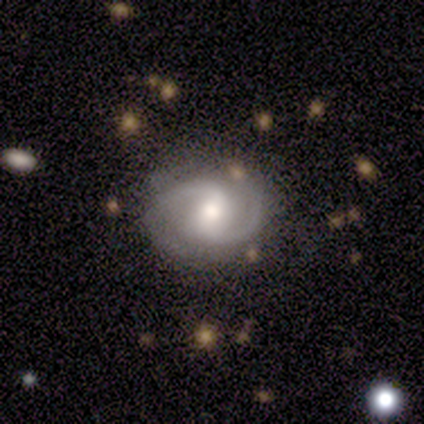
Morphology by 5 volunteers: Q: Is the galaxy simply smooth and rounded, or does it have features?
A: featured or disk — 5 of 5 (100%).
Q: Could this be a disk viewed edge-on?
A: no — 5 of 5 (100%).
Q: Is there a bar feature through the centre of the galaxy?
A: weak — 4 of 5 (80%).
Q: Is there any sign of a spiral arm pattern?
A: yes — 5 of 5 (100%).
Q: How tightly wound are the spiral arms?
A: medium — 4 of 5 (80%).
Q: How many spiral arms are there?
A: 2 — 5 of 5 (100%).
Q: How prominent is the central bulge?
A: moderate — 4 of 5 (80%).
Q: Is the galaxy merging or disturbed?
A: none — 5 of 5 (100%).